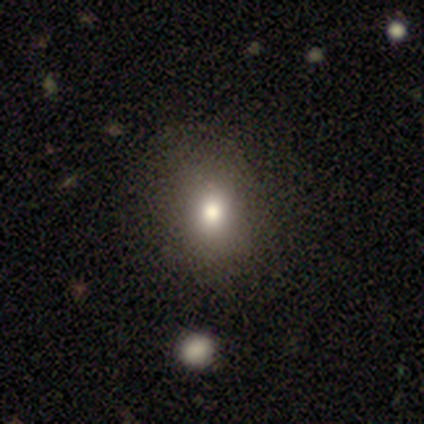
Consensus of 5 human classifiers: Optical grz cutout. It shows a smooth galaxy with no disk features (60%) that is round (67%). Merging: none (100%).